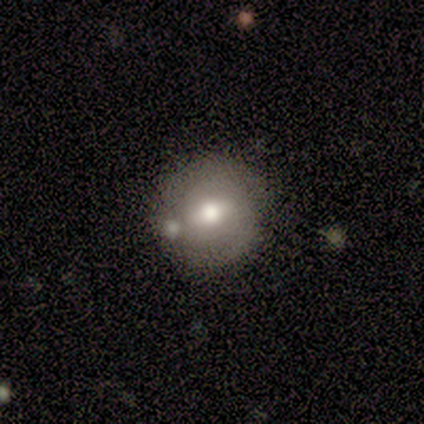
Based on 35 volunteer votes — Overall: smooth (51%; featured or disk 43%). How rounded: round (100%). Merging: none (73%).